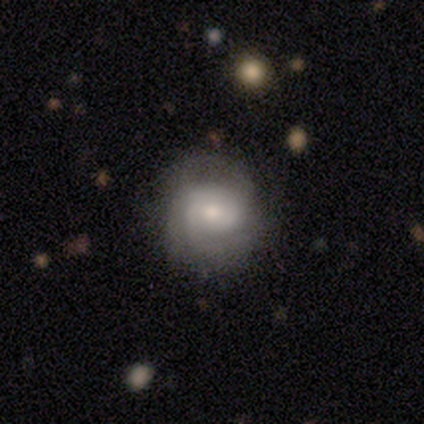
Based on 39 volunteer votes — Morphology: type=featured or disk (69%); edge-on=no (96%); bar=weak (46%, tied with no); spiral arms=yes (96%); winding=tight (44%, tied with medium); arm count=can't tell (36%); bulge=moderate (58%); merging=none (76%).